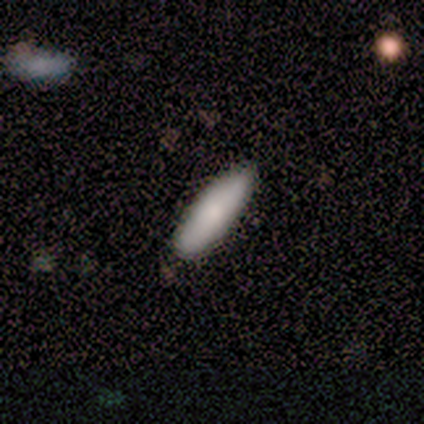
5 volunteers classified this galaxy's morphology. type=smooth (100%); roundness=cigar-shaped (80%); merging=none (100%).